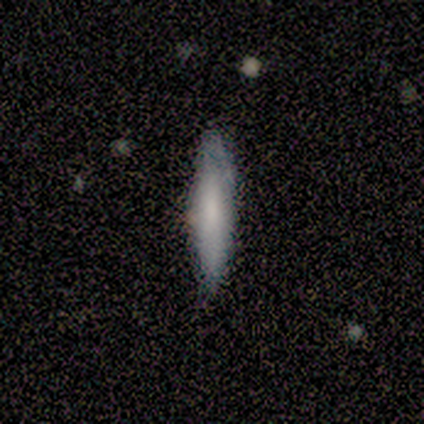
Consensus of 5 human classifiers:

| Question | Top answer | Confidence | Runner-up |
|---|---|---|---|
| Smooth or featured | smooth | 80% | featured or disk (20%) |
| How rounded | in between | 50% | tied: cigar-shaped (50%) |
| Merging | none | 100% | — |